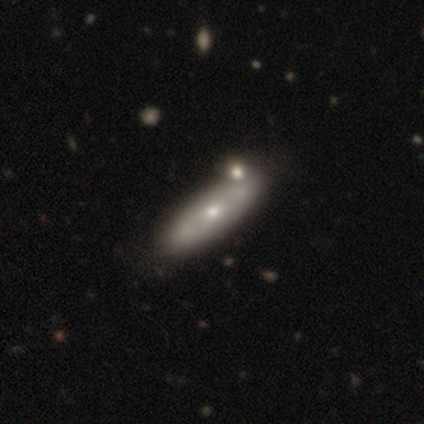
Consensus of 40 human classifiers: smooth 55%, featured or disk 45%, star or artifact 0%. Down the decision tree: how rounded — in between (55%); merging — none (50%).